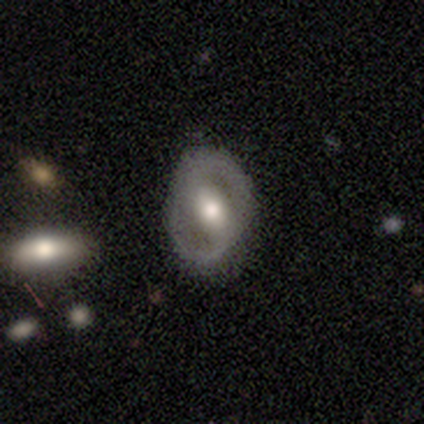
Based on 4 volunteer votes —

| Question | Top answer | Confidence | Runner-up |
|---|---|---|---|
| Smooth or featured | smooth | 50% | tied: featured or disk (50%) |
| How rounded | in between | 100% | — |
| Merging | none | 75% | minor disturbance (25%) |